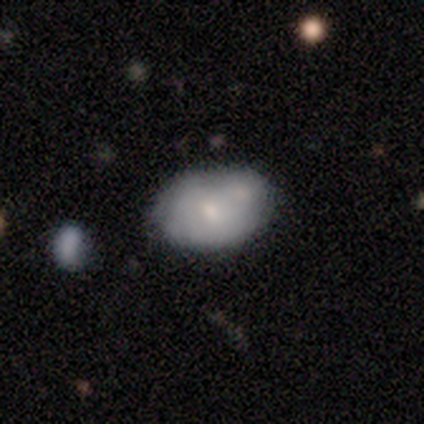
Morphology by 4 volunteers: This appears to be a smooth galaxy with no disk features (50%, tied with featured or disk) that is in between round and cigar-shaped (100%). Merging: none (50%, tied with merger).